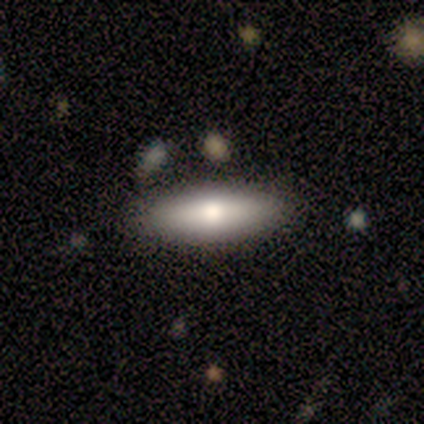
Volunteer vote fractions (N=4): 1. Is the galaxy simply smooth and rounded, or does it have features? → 50% smooth (tied), 50% featured or disk (tied), 0% star or artifact.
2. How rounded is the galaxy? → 50% in between (tied), 50% cigar-shaped (tied), 0% round.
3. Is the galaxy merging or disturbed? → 100% none, 0% minor disturbance, 0% major disturbance, 0% merger.